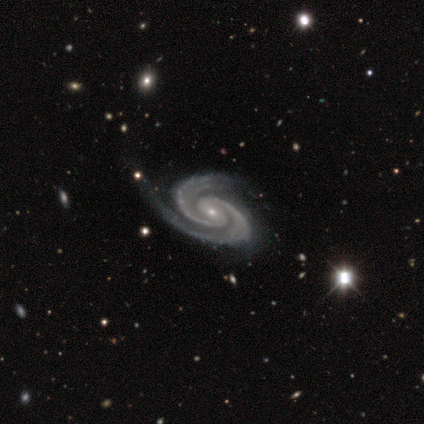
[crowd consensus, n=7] Morphology: type=featured or disk (86%); edge-on=no (100%); bar=no (50%); spiral arms=yes (100%); winding=tight (67%); arm count=2 (83%); bulge=small (83%); merging=none (57%).